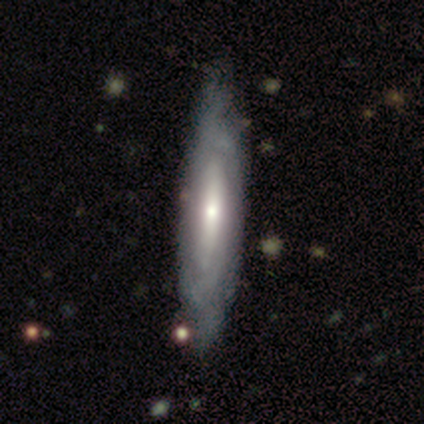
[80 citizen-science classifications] featured or disk 65%, smooth 34%, star or artifact 1%. Down the decision tree: edge-on disk — no (63%); bar — no (61%); spiral arms — yes (61%); spiral arm count — can't tell (95%); spiral winding — tight (70%); bulge size — moderate (52%); merging — none (34%).